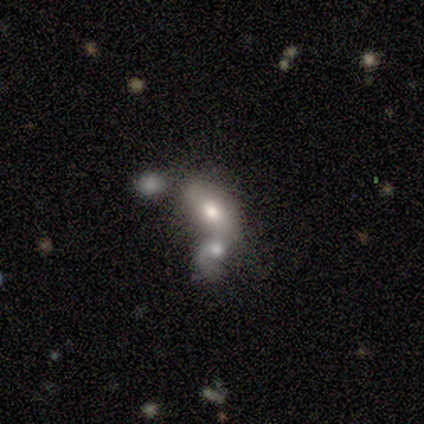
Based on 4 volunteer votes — Q: Smooth or featured?
A: smooth (50%); runner-up: featured or disk (25%)
Q: How rounded?
A: in between (100%)
Q: Merging?
A: none (33%); tied with: major disturbance (33%); merger (33%)